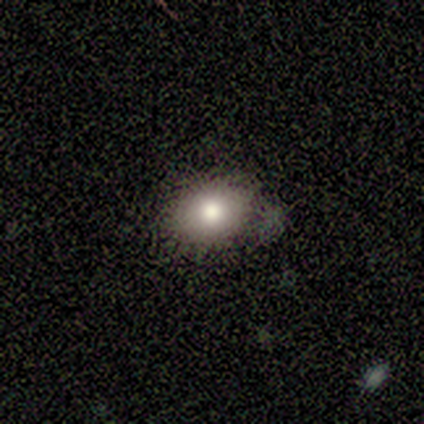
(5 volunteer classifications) smooth 100%, featured or disk 0%, star or artifact 0%. Down the decision tree: how rounded — in between (60%); merging — none (40%, tied with minor disturbance).